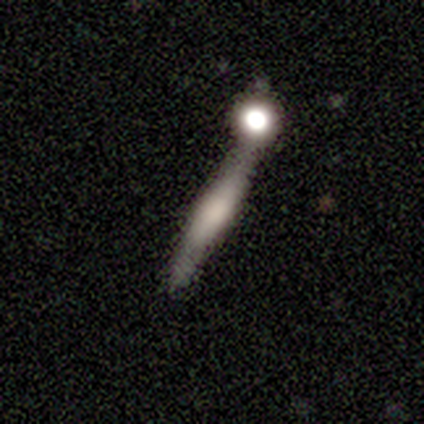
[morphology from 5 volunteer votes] Smooth or featured?
  - smooth: 80% *
  - star or artifact: 20%
  - featured or disk: 0%
How rounded?
  - cigar-shaped: 100% *
  - round: 0%
  - in between: 0%
Merging?
  - merger: 50% *
  - none: 25%
  - minor disturbance: 25%
  - major disturbance: 0%